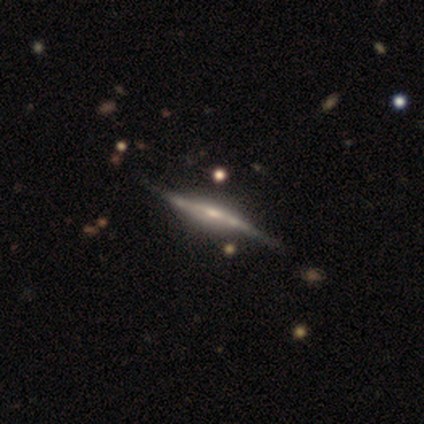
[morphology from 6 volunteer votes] Q: Smooth or featured?
A: featured or disk (100%)
Q: Edge-on disk?
A: yes (83%); runner-up: no (17%)
Q: Edge-on bulge?
A: rounded (80%); runner-up: none (20%)
Q: Merging?
A: none (50%); runner-up: minor disturbance (33%)